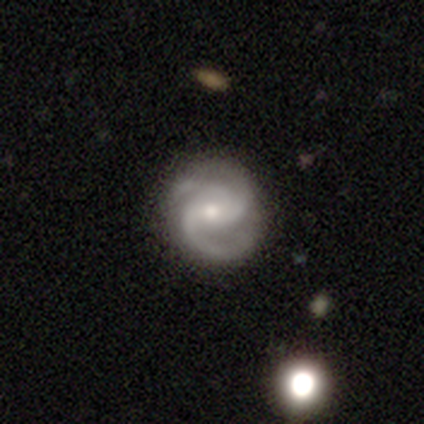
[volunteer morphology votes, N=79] This appears to be a featured or disk galaxy (89%) with no bar (51%), 2 (54%) medium (65%) spiral arms (100%) and a moderate central bulge (62%). Merging: none (51%).